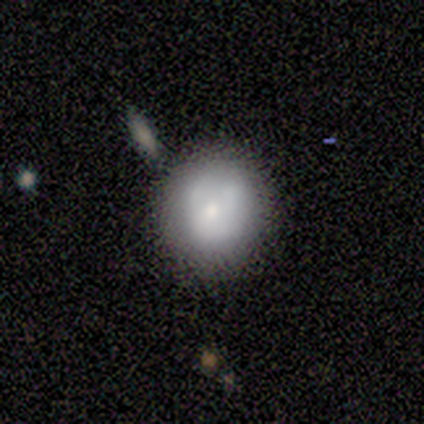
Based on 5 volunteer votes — Smooth or featured?
  - smooth: 80% *
  - featured or disk: 20%
  - star or artifact: 0%
How rounded?
  - round: 100% *
  - in between: 0%
  - cigar-shaped: 0%
Merging?
  - none: 60% *
  - minor disturbance: 40%
  - major disturbance: 0%
  - merger: 0%